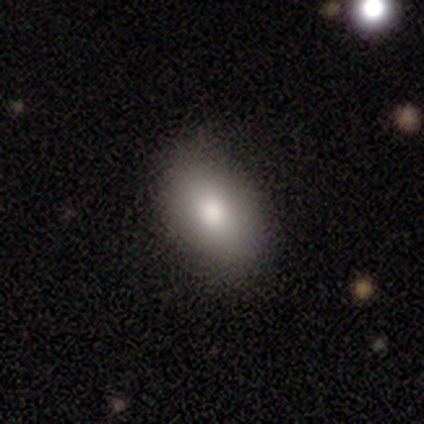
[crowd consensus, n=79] Overall: smooth (89%). How rounded: in between (87%). Merging: none (53%).